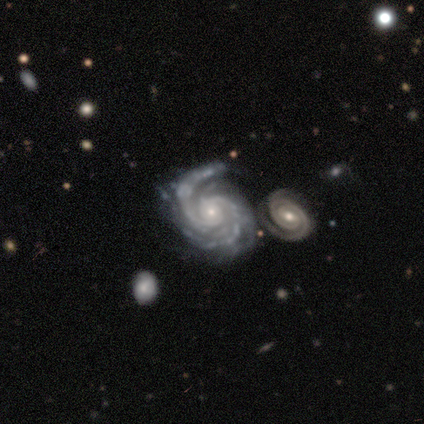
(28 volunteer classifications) Smooth or featured? featured or disk (100%)
Edge-on disk? no (96%)
Bar? no (70%)
Spiral arms? yes (100%)
Spiral winding? tight (74%)
Spiral arm count? 2 (70%)
Bulge size? small (74%)
Merging? merger (46%)